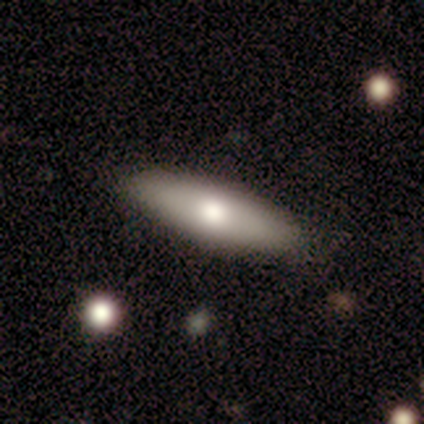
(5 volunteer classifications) Smooth or featured: smooth — 80% (featured or disk — 20%)
How rounded: in between — 75% (cigar-shaped — 25%)
Merging: none — 80% (minor disturbance — 20%)